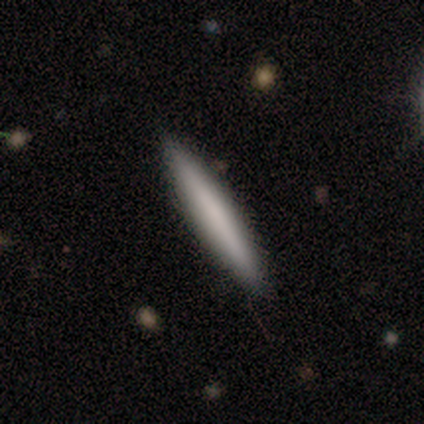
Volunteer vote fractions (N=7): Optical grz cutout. It shows a smooth galaxy with no disk features (71%) that is cigar-shaped (100%). Merging: none (83%).